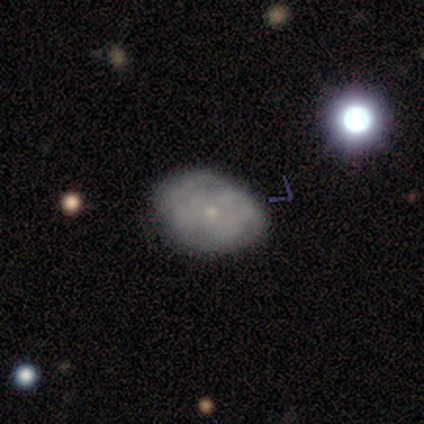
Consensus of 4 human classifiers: A smooth galaxy with no disk features (50%, tied with featured or disk) that is in between round and cigar-shaped (100%). Merging: none (50%).